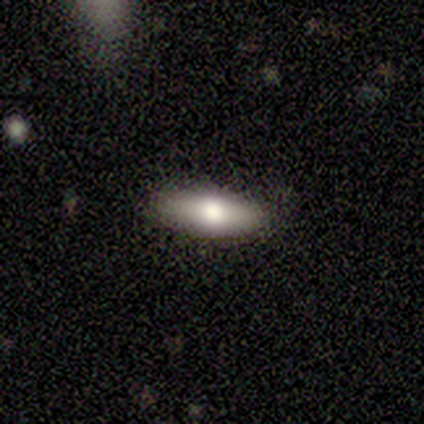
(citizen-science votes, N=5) Smooth or featured?
  - smooth: 80% *
  - featured or disk: 20%
  - star or artifact: 0%
How rounded?
  - cigar-shaped: 75% *
  - in between: 25%
  - round: 0%
Merging?
  - none: 80% *
  - minor disturbance: 20%
  - major disturbance: 0%
  - merger: 0%